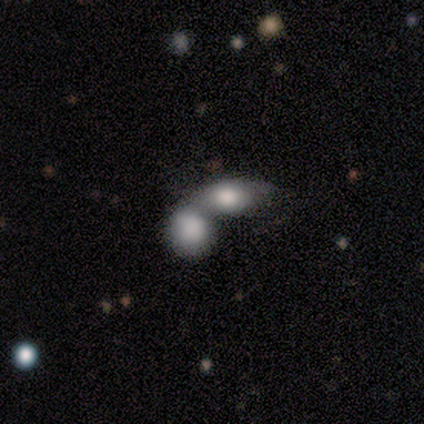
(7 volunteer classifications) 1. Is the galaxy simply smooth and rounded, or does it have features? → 86% smooth, 14% featured or disk, 0% star or artifact.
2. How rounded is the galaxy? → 100% in between, 0% round, 0% cigar-shaped.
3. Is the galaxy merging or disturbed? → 71% merger, 14% none, 14% minor disturbance, 0% major disturbance.